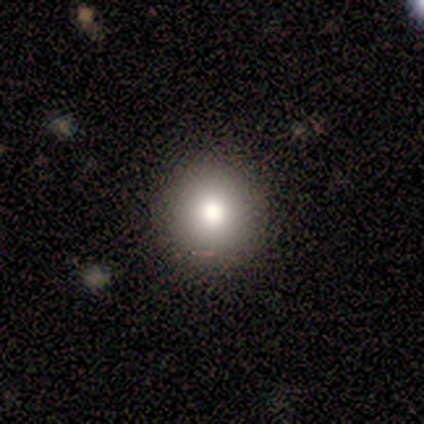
smooth-or-featured: star or artifact: 50% | smooth: 25% | featured or disk: 25%